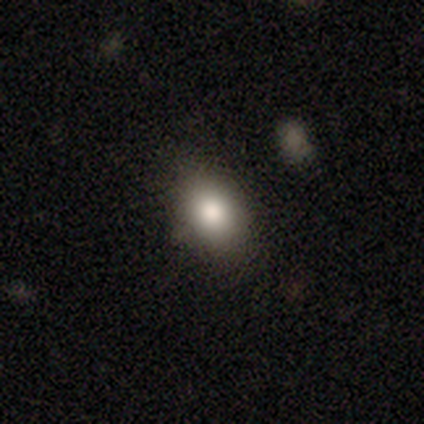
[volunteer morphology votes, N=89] This is likely a smooth galaxy (78%). How rounded: likely in between (70%). Merging: clearly none (85%).